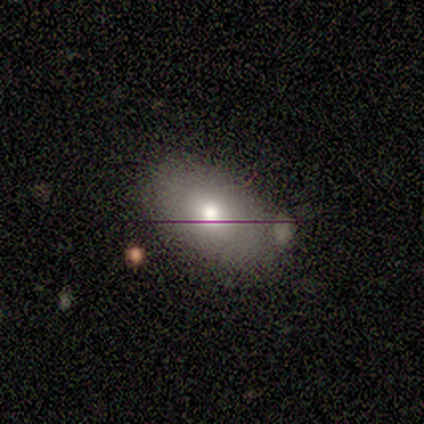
smooth_or_featured: smooth (p=0.83) [alt: featured or disk p=0.17]
how_rounded: in between (p=0.80) [alt: round p=0.20]
merging: none (p=0.67) [alt: minor disturbance p=0.33]